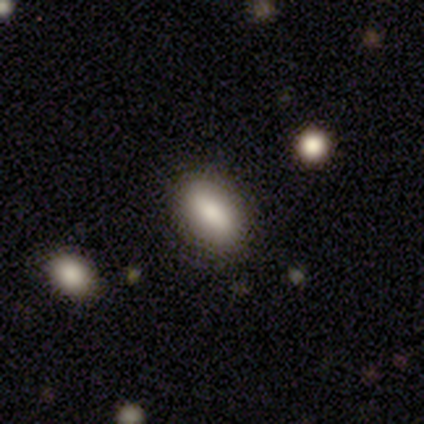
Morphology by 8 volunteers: smooth 75%, featured or disk 25%, star or artifact 0%. Down the decision tree: how rounded — in between (83%); merging — none (88%).